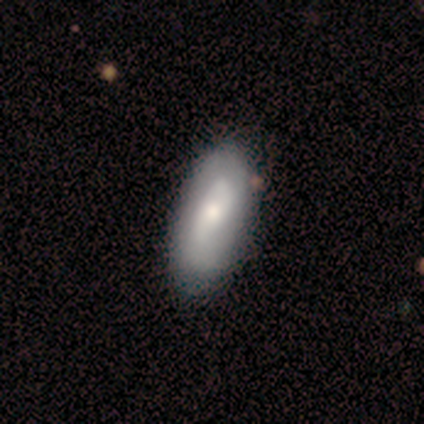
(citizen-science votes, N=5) Volunteers were most divided on "spiral winding" (2-way tie): medium: 50%, loose: 50%, tight: 0%. More confident: bar — weak (100%); spiral arms — yes (100%); spiral arm count — can't tell (100%); bulge size — moderate (100%); edge-on disk — no (67%); smooth or featured — featured or disk (60%); merging — none (60%).